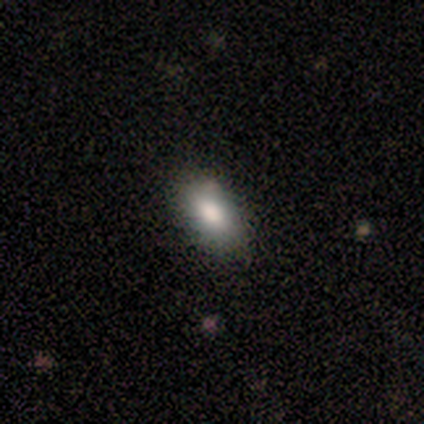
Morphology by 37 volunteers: This appears to be a smooth galaxy with no disk features (86%) that is in between round and cigar-shaped (91%). Merging: none (79%).